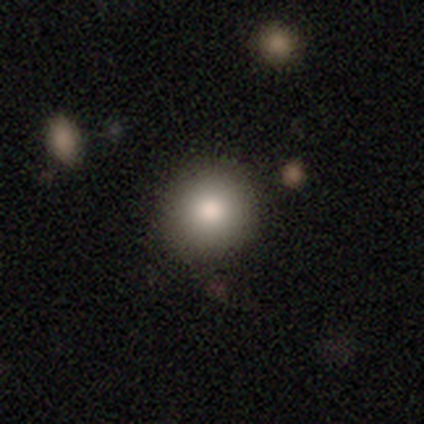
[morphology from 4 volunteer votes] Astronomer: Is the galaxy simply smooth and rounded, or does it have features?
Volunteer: smooth — 50%.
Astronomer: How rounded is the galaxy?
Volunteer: round — 50%, tied with in between at 50%.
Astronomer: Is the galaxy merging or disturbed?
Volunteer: none — 67%.